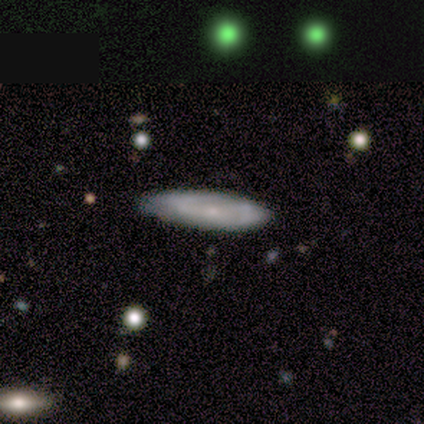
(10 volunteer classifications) smooth_or_featured: smooth (p=0.50) [alt: featured or disk p=0.40]
how_rounded: cigar-shaped (p=0.60) [alt: in between p=0.40]
merging: none (p=0.78) [alt: minor disturbance p=0.22]